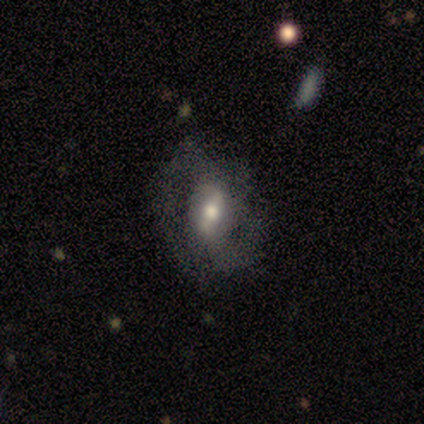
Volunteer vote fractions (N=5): A featured or disk galaxy (100%) with a strong bar (60%), 2 (67%) medium (67%) spiral arms (60%) and a small central bulge (60%). Merging: none (60%).